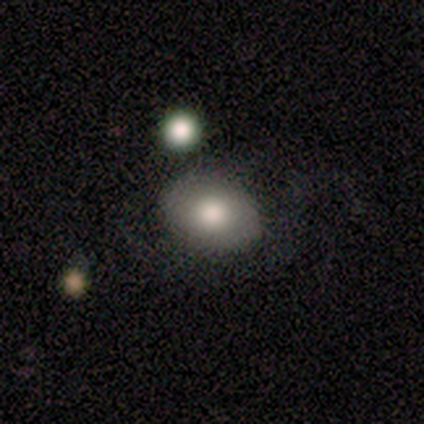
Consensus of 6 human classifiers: Overall: smooth (67%; featured or disk 33%). How rounded: round (50%, tied with in between). Merging: none (83%).